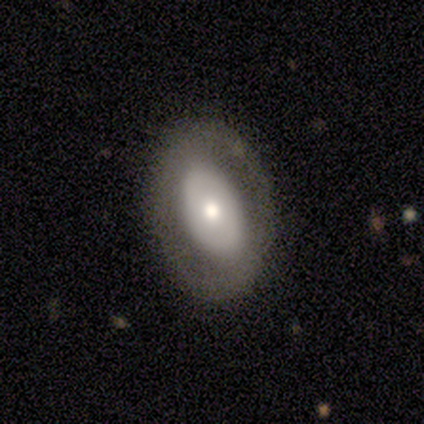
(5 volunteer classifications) This appears to be a smooth galaxy with no disk features (40%, tied with featured or disk) that is in between round and cigar-shaped (100%). Merging: none (100%).